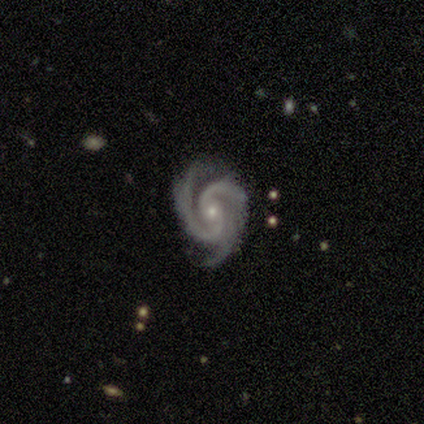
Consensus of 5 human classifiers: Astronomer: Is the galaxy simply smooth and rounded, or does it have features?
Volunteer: featured or disk — 100%.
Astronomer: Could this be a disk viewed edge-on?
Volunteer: no — 100%.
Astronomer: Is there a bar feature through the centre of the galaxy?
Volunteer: no — 80%.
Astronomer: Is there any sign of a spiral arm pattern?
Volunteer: yes — 100%.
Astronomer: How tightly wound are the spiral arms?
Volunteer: medium — 60% (runner-up: tight, 40%).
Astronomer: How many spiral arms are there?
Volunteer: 3 — 80%.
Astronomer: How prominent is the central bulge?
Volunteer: small — 100%.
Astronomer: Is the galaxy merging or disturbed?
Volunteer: none — 60% (runner-up: minor disturbance, 40%).